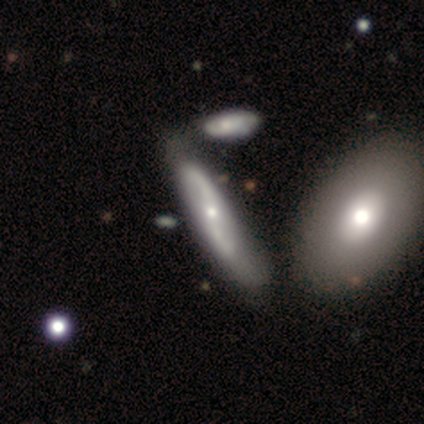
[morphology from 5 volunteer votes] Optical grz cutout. It shows a featured or disk galaxy (80%) with a strong bar (67%), 2 (100%) loose (100%) spiral arms (100%) and a small central bulge (67%). Merging: merger (60%).